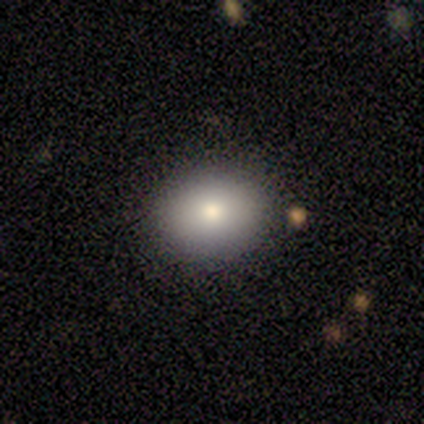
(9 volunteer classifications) This is possibly a smooth galaxy (56%). How rounded: likely round (60%). Merging: clearly none (100%).